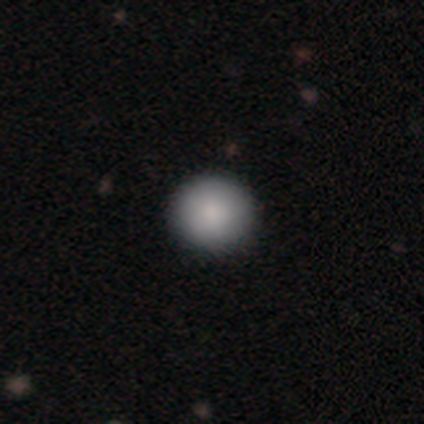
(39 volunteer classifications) smooth 87%, star or artifact 10%, featured or disk 3%. Down the decision tree: how rounded — round (91%); merging — none (89%).